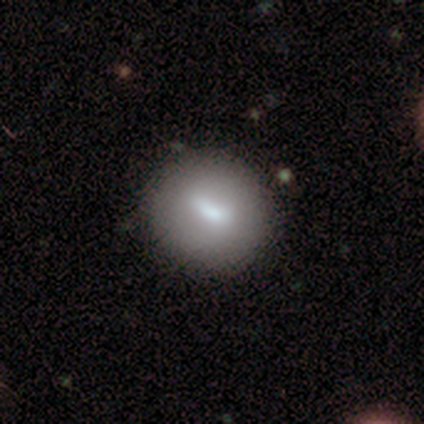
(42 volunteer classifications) smooth-or-featured: smooth: 60% | featured or disk: 31% | star or artifact: 10%
  how-rounded: round: 92% | in between: 8% | cigar-shaped: 0%
  merging: none: 84% | minor disturbance: 8% | major disturbance: 8% | merger: 0%